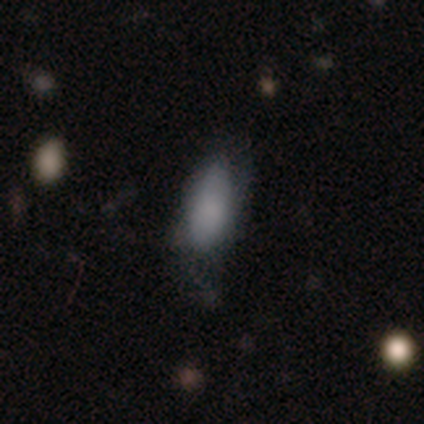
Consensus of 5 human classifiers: smooth-or-featured: smooth: 80% | star or artifact: 20% | featured or disk: 0%
  how-rounded: in between: 75% | cigar-shaped: 25% | round: 0%
  merging: minor disturbance: 50% | none: 25% | major disturbance: 25% | merger: 0%